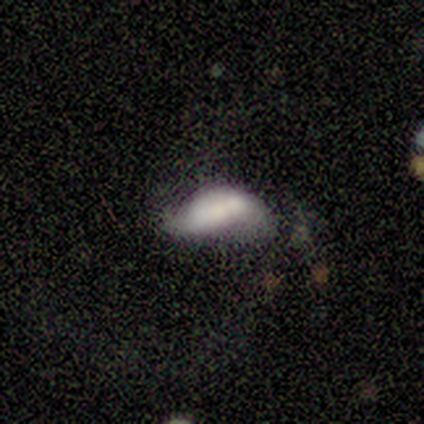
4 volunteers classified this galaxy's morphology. smooth-or-featured: smooth: 50% (tied) | featured or disk: 50% (tied) | star or artifact: 0%
  how-rounded: in between: 100% | round: 0% | cigar-shaped: 0%
  merging: minor disturbance: 50% | none: 25% | major disturbance: 25% | merger: 0%